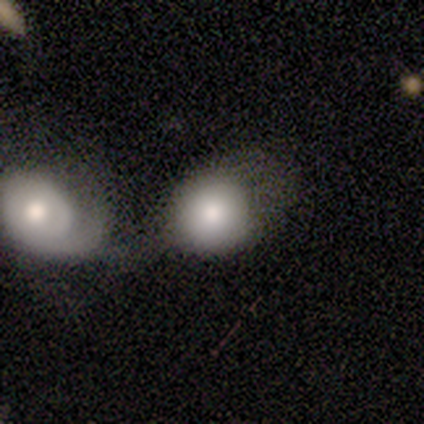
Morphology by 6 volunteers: Smooth or featured? 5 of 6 (83%) said smooth. How rounded? 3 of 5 (60%) said in between. Merging? 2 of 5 (40%, tied with minor disturbance) said none.